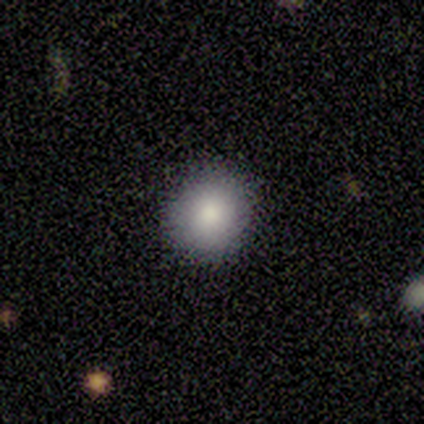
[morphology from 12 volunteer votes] Smooth or featured?
  - smooth: 83% *
  - featured or disk: 17%
  - star or artifact: 0%
How rounded?
  - round: 80% *
  - in between: 20%
  - cigar-shaped: 0%
Merging?
  - none: 92% *
  - minor disturbance: 8%
  - major disturbance: 0%
  - merger: 0%